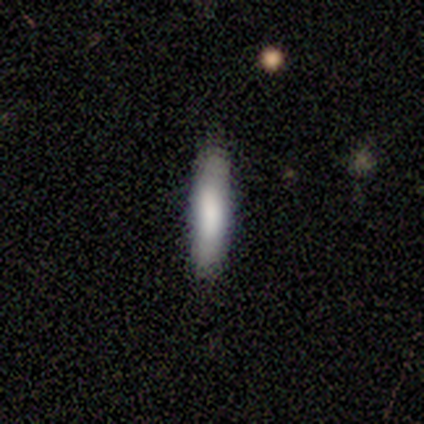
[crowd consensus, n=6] Overall: smooth (83%). How rounded: cigar-shaped (100%). Merging: none (100%).